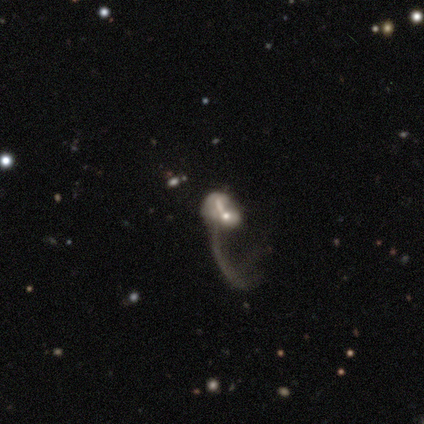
featured or disk 74%, smooth 18%, star or artifact 8%. Down the decision tree: edge-on disk — no (93%); bar — no (74%); spiral arms — no (59%); bulge size — small (59%); merging — major disturbance (58%).